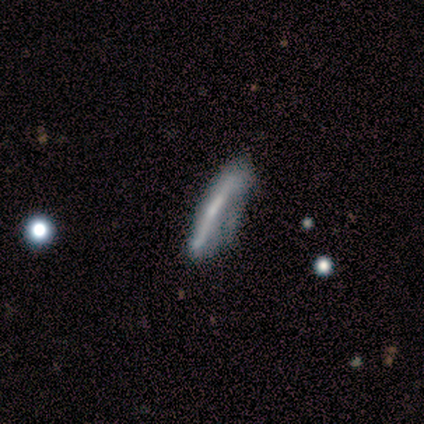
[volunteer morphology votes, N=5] Volunteers were most divided on "bar" (2-way tie): strong: 50%, no: 50%, weak: 0%; "spiral arms" (2-way tie): yes: 50%, no: 50%; "bulge size" (2-way tie): small: 50%, none: 50%, dominant: 0%, large: 0%, moderate: 0%; "merging" (2-way tie): none: 40%, major disturbance: 40%, minor disturbance: 20%, merger: 0%. More confident: spiral winding — medium (100%); spiral arm count — 2 (100%); edge-on disk — no (67%); smooth or featured — featured or disk (60%).